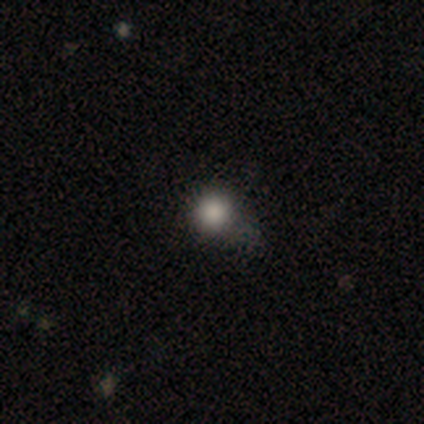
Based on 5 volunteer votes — Morphology: type=smooth (80%); roundness=round (100%); merging=none (50%).